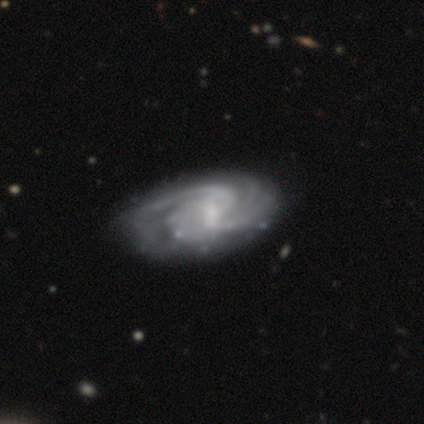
smooth_or_featured: featured or disk (p=1.00)
disk_edge_on: no (p=1.00)
bar: weak (p=0.67) [alt: strong p=0.33]
has_spiral_arms: yes (p=1.00)
spiral_winding: tight (p=0.50) [alt: medium p=0.33]
spiral_arm_count: 4 (p=0.50) [alt: 2 p=0.33]
bulge_size: small (p=0.50) [alt: moderate p=0.33]
merging: minor disturbance (p=0.50) [alt: none p=0.33]